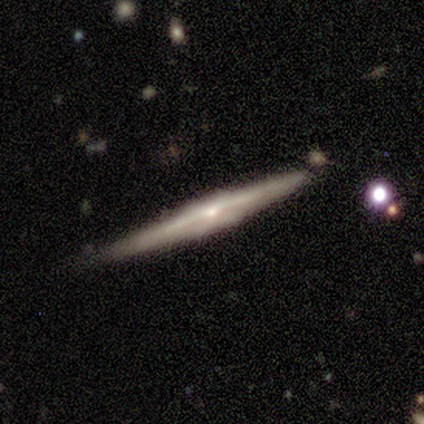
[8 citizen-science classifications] Smooth or featured? 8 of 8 (100%) said featured or disk. Edge-on disk? 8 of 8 (100%) said yes. Edge-on bulge? 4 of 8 (50%) said rounded. Merging? 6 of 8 (75%) said none.